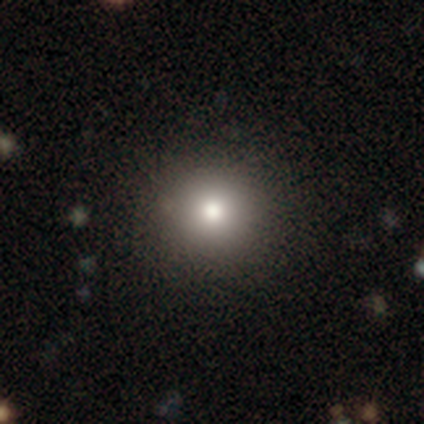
Smooth or featured? smooth (80%)
How rounded? round (100%)
Merging? none (100%)